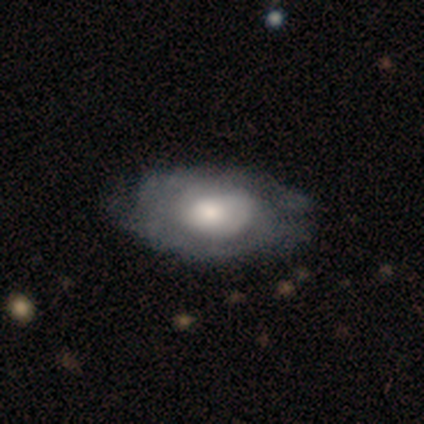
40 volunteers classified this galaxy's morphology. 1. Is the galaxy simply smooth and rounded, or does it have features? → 55% featured or disk, 42% smooth, 2% star or artifact.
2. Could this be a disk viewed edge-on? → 91% no, 9% yes.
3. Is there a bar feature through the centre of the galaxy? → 90% no, 10% weak, 0% strong.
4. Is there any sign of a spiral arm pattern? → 55% yes, 45% no.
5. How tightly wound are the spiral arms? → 64% tight, 27% medium, 9% loose.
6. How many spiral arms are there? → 73% can't tell, 18% 2, 9% 4, 0% 1, 0% 3, 0% more than 4.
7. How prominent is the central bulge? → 50% moderate, 30% large, 15% small, 5% dominant, 0% none.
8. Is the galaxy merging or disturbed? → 38% none, 26% minor disturbance, 10% major disturbance, 0% merger.